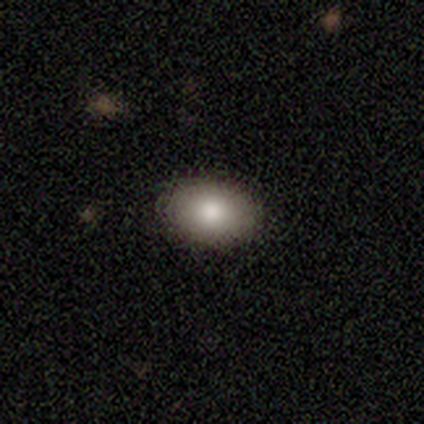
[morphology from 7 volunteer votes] Volunteers were most divided on "how rounded": in between: 67%, round: 33%, cigar-shaped: 0%. More confident: merging — none (100%); smooth or featured — smooth (86%).